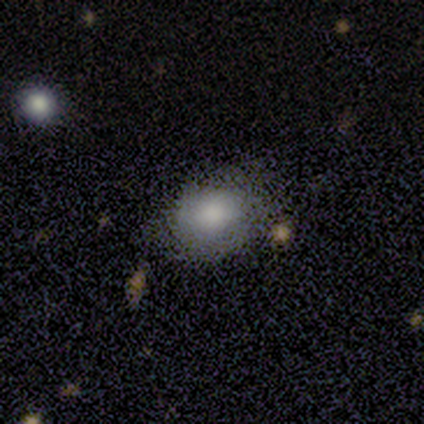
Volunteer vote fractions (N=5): A smooth galaxy with no disk features (60%) that is in between round and cigar-shaped (100%).

Vote fractions:
- Smooth or featured? smooth: 60% / featured or disk: 40% / star or artifact: 0%
- How rounded? in between: 100% / round: 0% / cigar-shaped: 0%
- Merging? minor disturbance: 60% / none: 40% / major disturbance: 0% / merger: 0%